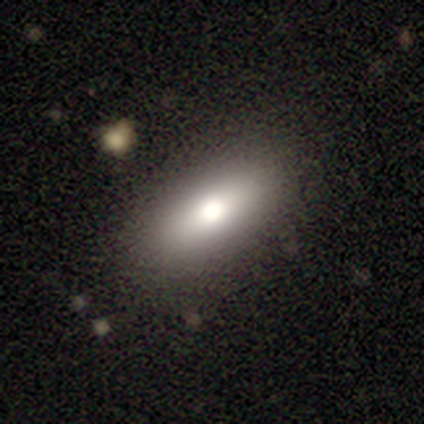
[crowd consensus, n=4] smooth-or-featured: smooth: 75% | featured or disk: 25% | star or artifact: 0%
  how-rounded: in between: 67% | cigar-shaped: 33% | round: 0%
  merging: none: 75% | minor disturbance: 25% | major disturbance: 0% | merger: 0%